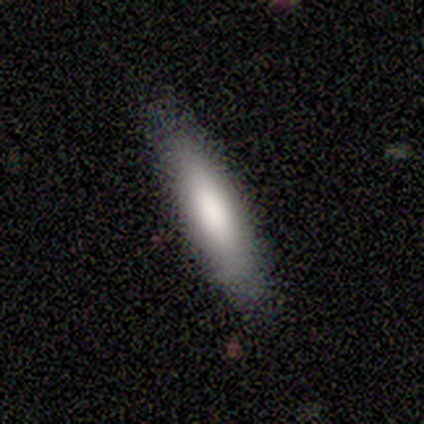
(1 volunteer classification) A smooth galaxy with no disk features (100%) that is cigar-shaped (100%). Merging: none (100%).